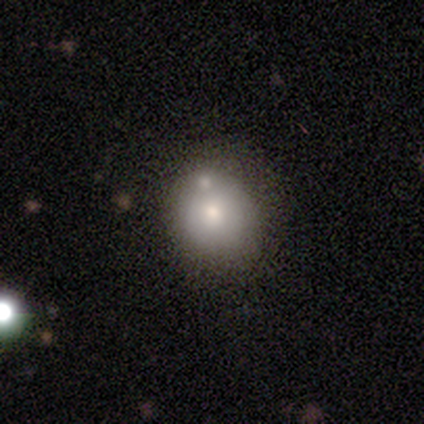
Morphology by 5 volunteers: Smooth or featured? smooth (60%)
How rounded? round (100%)
Merging? none (80%)